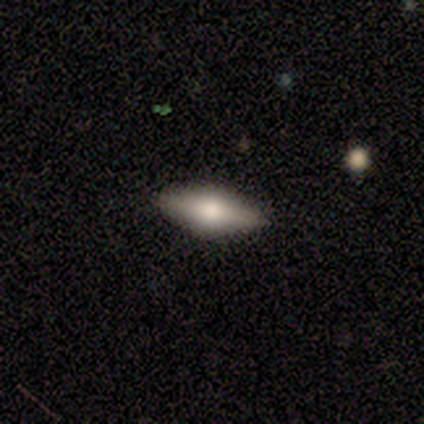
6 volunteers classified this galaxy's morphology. This is likely a featured or disk galaxy (67%). It is likely viewed edge-on (75%). Edge-on bulge: clearly rounded (100%). Merging: clearly none (100%).